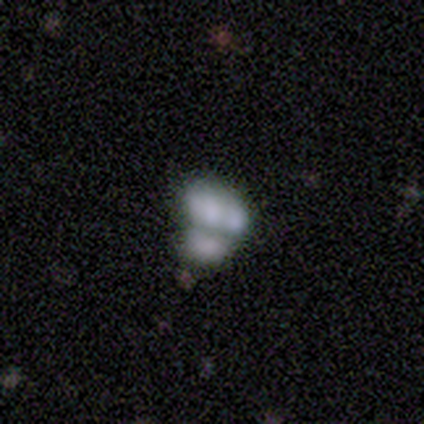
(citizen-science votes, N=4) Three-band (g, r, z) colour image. It shows a featured or disk galaxy (75%) with no bar (100%), no spiral arms (100%) and no central bulge (67%). Merging: none (75%).